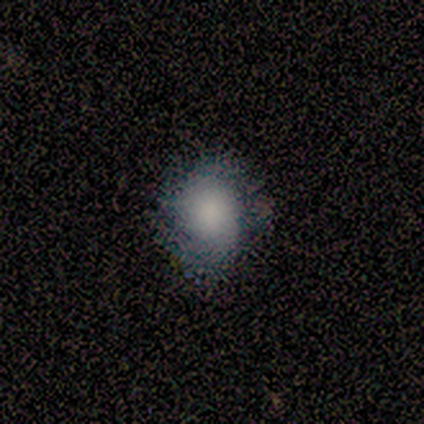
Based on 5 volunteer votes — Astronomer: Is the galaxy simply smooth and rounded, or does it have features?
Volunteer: smooth — 100%.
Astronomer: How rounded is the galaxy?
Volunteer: round — 60% (runner-up: in between, 40%).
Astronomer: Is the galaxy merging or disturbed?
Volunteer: none — 80%.